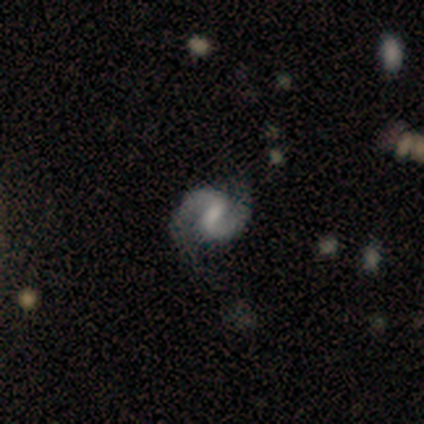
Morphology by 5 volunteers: smooth-or-featured: featured or disk: 100% | smooth: 0% | star or artifact: 0%
  disk-edge-on: no: 100% | yes: 0%
    bar: weak: 80% | strong: 20% | no: 0%
    has-spiral-arms: yes: 100% | no: 0%
      spiral-winding: medium: 80% | tight: 20% | loose: 0%
      spiral-arm-count: 2: 100% | 1: 0% | 3: 0% | 4: 0% | more than 4: 0% | can't tell: 0%
    bulge-size: small: 40% | dominant: 20% | large: 20% | moderate: 20% | none: 0%
  merging: none: 80% | major disturbance: 20% | minor disturbance: 0% | merger: 0%